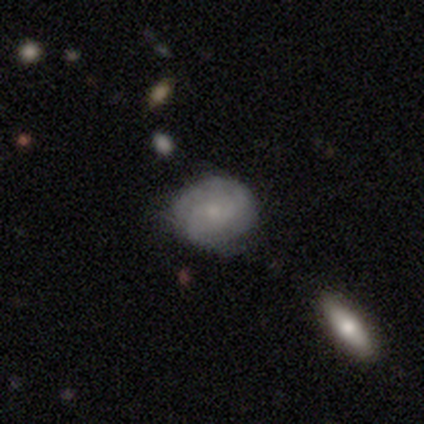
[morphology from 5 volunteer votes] Q: Smooth or featured?
A: smooth (80%); runner-up: featured or disk (20%)
Q: How rounded?
A: round (100%)
Q: Merging?
A: none (80%); runner-up: minor disturbance (20%)